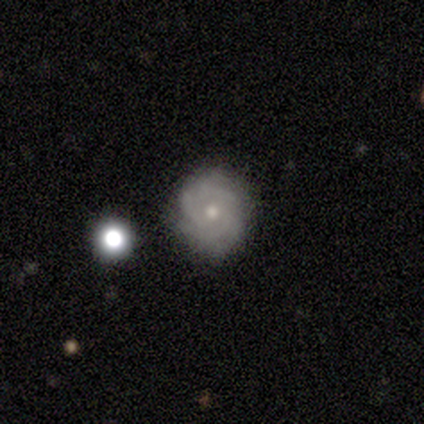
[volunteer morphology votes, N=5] This appears to be a featured or disk galaxy (100%) with no bar (60%), 3 (50%, tied with 4) medium (50%) spiral arms (80%) and a small central bulge (100%). Merging: none (80%).